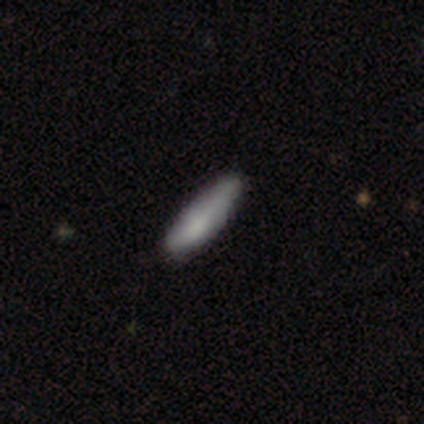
Smooth or featured? smooth (100%)
How rounded? cigar-shaped (60%)
Merging? none (80%)